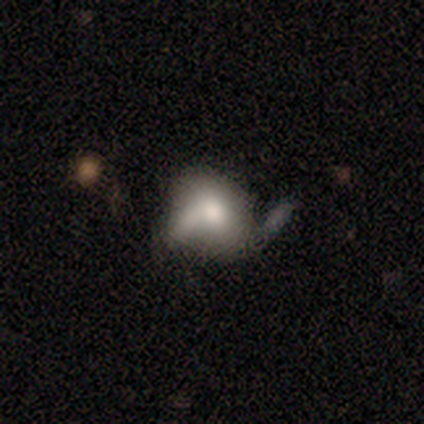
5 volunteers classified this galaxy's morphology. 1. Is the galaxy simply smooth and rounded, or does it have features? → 60% featured or disk, 40% smooth, 0% star or artifact.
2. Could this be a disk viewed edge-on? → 100% no, 0% yes.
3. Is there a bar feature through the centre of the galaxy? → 100% no, 0% strong, 0% weak.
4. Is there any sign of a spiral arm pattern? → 67% yes, 33% no.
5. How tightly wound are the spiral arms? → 100% loose, 0% tight, 0% medium.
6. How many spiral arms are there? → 100% 1, 0% 2, 0% 3, 0% 4, 0% more than 4, 0% can't tell.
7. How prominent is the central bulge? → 67% large, 33% moderate, 0% dominant, 0% small, 0% none.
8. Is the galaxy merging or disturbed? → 40% none (tied), 40% minor disturbance (tied), 20% merger, 0% major disturbance.